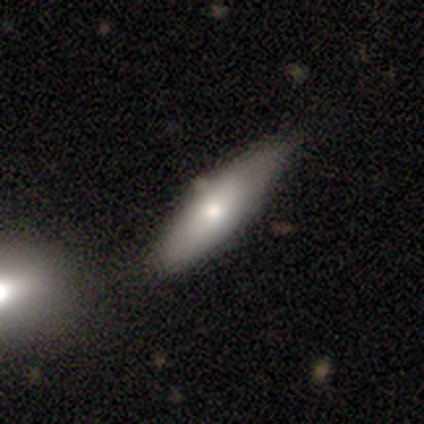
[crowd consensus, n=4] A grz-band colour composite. It shows a smooth galaxy with no disk features (75%) that is in between round and cigar-shaped (67%). Merging: none (75%).